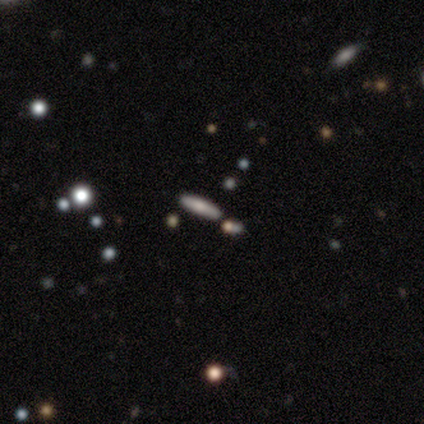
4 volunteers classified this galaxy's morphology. Smooth or featured: smooth — 75% (featured or disk — 25%)
How rounded: cigar-shaped — 100%
Merging: none — 100%